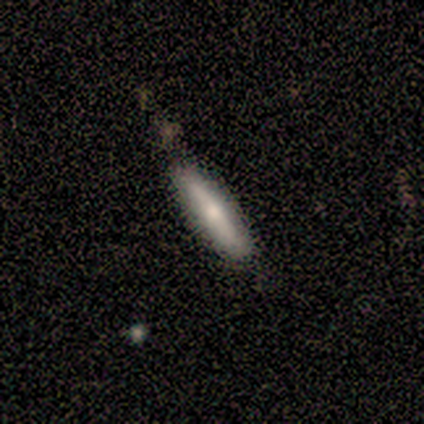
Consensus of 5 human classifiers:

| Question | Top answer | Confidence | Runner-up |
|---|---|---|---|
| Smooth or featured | smooth | 60% | featured or disk (40%) |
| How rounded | cigar-shaped | 100% | — |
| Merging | none | 100% | — |